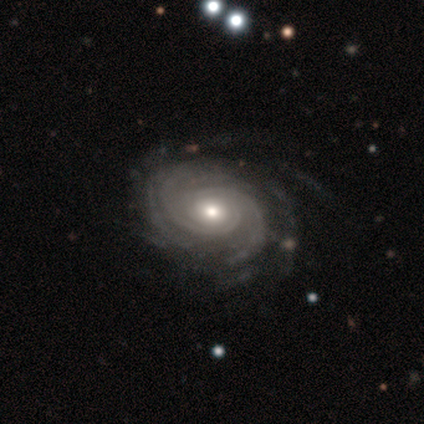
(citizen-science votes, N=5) Smooth or featured?
  - featured or disk: 80% *
  - smooth: 20%
  - star or artifact: 0%
Edge-on disk?
  - no: 100% *
  - yes: 0%
Bar?
  - weak: 50% * (tied)
  - no: 50% * (tied)
  - strong: 0%
Spiral arms?
  - yes: 100% *
  - no: 0%
Spiral winding?
  - tight: 75% *
  - medium: 25%
  - loose: 0%
Spiral arm count?
  - can't tell: 50% *
  - 2: 25%
  - 4: 25%
  - 1: 0%
  - 3: 0%
  - more than 4: 0%
Bulge size?
  - small: 100% *
  - dominant: 0%
  - large: 0%
  - moderate: 0%
  - none: 0%
Merging?
  - none: 80% *
  - major disturbance: 20%
  - minor disturbance: 0%
  - merger: 0%